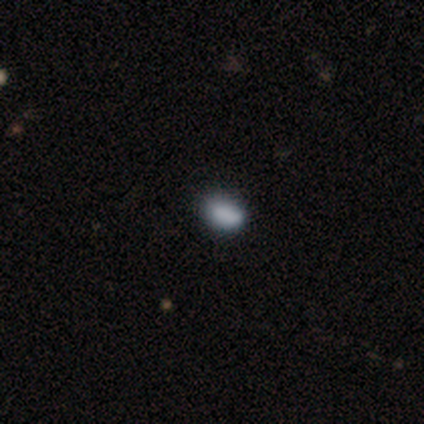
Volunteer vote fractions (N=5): Volunteers were most divided on "how rounded": in between: 80%, round: 20%, cigar-shaped: 0%. More confident: smooth or featured — smooth (100%); merging — none (80%).